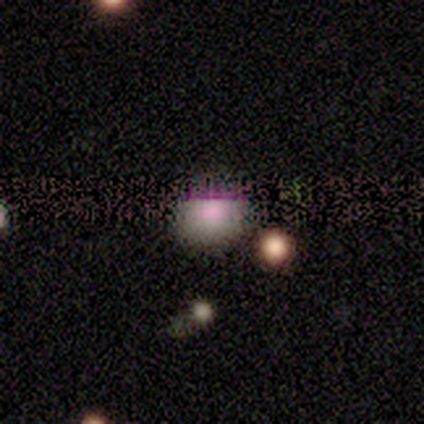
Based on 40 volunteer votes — Overall: smooth (62%; star or artifact 32%). How rounded: round (100%). Merging: none (56%; merger 26%).